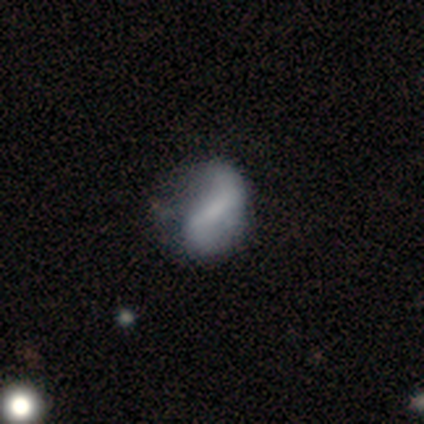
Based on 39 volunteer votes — Smooth or featured? featured or disk (67%)
Edge-on disk? no (96%)
Bar? weak (60%)
Spiral arms? yes (76%)
Spiral winding? loose (68%)
Spiral arm count? 2 (74%)
Bulge size? none (48%)
Merging? none (53%)